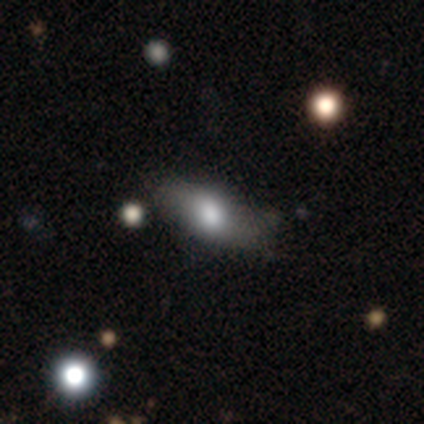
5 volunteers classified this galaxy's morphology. This is likely a smooth galaxy (60%). How rounded: likely in between (67%). Merging: clearly none (80%).